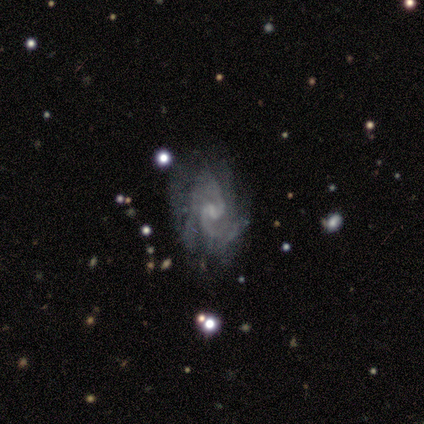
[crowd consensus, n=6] This appears to be a featured or disk galaxy (100%) with a weak bar (50%, tied with no), 2 (100%) medium (100%) spiral arms (100%) and a small central bulge (83%). Merging: none (83%).